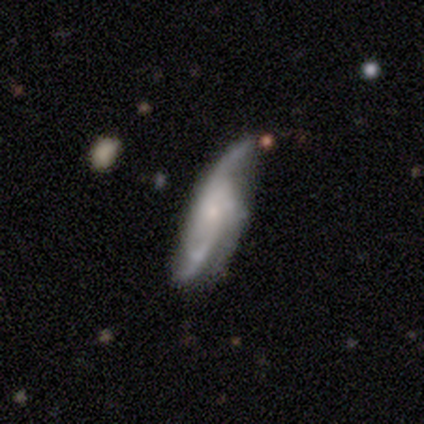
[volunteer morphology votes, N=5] type=featured or disk (80%); edge-on=no (100%); bar=no (100%); spiral arms=yes (100%); winding=medium (75%); arm count=3 (50%); bulge=small (100%); merging=minor disturbance (60%).